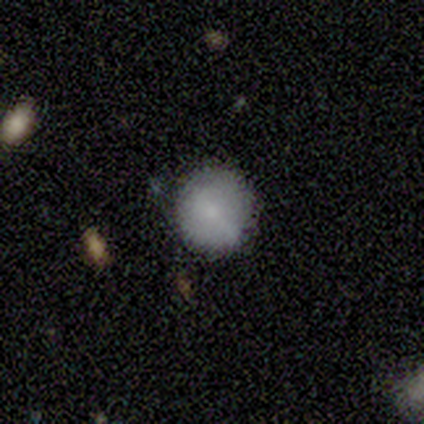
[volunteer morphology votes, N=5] This appears to be a smooth galaxy with no disk features (60%) that is round (100%). Merging: none (60%).